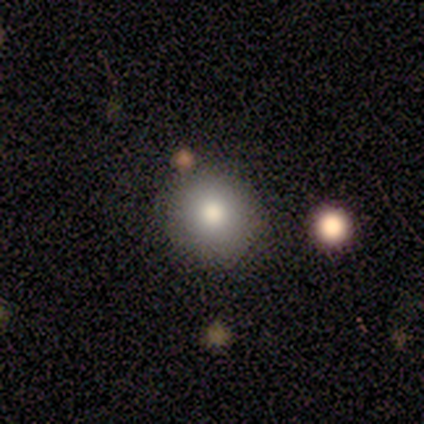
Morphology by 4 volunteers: Smooth or featured?
  - smooth: 50% *
  - featured or disk: 25%
  - star or artifact: 25%
How rounded?
  - round: 100% *
  - in between: 0%
  - cigar-shaped: 0%
Merging?
  - none: 100% *
  - minor disturbance: 0%
  - major disturbance: 0%
  - merger: 0%